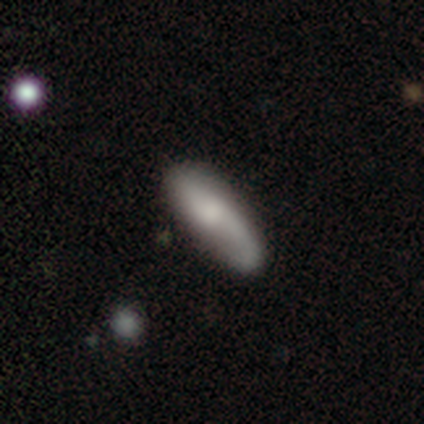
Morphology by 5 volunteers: A featured or disk galaxy (60%) viewed edge-on (67%) with no central bulge (50%, tied with rounded).

Vote fractions:
- Smooth or featured? featured or disk: 60% / smooth: 40% / star or artifact: 0%
- Edge-on disk? yes: 67% / no: 33%
- Edge-on bulge? none: 50% (tied) / rounded: 50% (tied) / boxy: 0%
- Merging? none: 60% / minor disturbance: 40% / major disturbance: 0% / merger: 0%